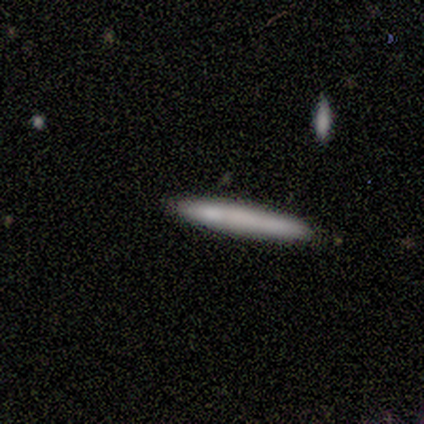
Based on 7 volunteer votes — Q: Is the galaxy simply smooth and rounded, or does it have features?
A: smooth — 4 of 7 (57%).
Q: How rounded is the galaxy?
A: cigar-shaped — 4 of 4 (100%).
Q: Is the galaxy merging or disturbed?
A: none — 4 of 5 (80%).